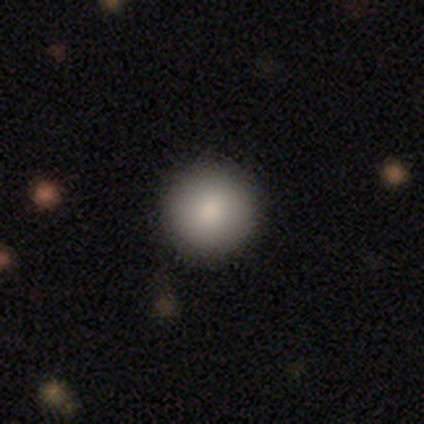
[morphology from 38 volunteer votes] Smooth or featured?
  - smooth: 84% *
  - star or artifact: 11%
  - featured or disk: 5%
How rounded?
  - round: 97% *
  - in between: 3%
  - cigar-shaped: 0%
Merging?
  - none: 97% *
  - merger: 3%
  - minor disturbance: 0%
  - major disturbance: 0%